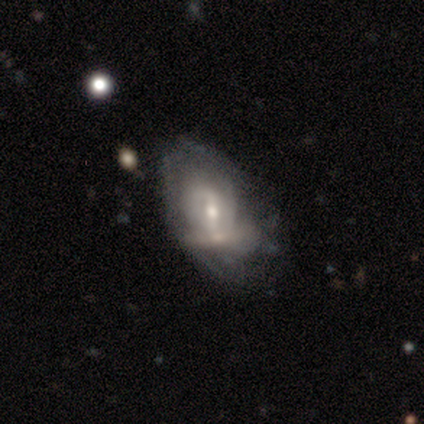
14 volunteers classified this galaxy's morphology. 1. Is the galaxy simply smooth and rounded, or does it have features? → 71% featured or disk, 29% smooth, 0% star or artifact.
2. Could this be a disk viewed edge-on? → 100% no, 0% yes.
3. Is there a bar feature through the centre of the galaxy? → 50% no, 30% weak, 20% strong.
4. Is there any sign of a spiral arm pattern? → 60% no, 40% yes.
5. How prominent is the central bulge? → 60% small, 30% moderate, 10% none, 0% dominant, 0% large.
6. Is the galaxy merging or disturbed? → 50% merger, 29% none, 14% minor disturbance, 7% major disturbance.